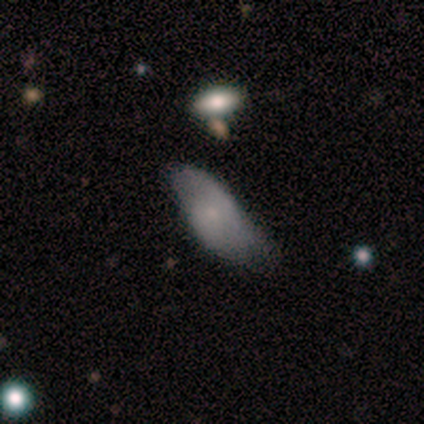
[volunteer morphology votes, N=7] Overall: featured or disk (71%). Edge-on disk: yes (60%; no 40%). Edge-on bulge: boxy (67%; rounded 33%). Merging: major disturbance (43%; merger 29%).